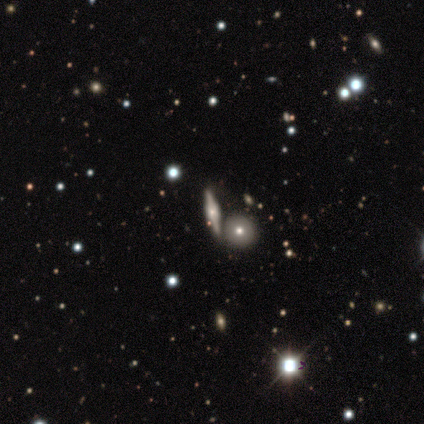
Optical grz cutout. It shows a smooth galaxy with no disk features (100%) that is round (100%). Merging: none (100%).